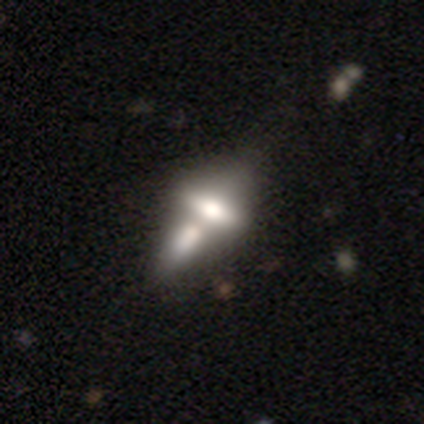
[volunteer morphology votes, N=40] Smooth or featured? smooth (48%)
How rounded? in between (68%)
Merging? merger (65%)